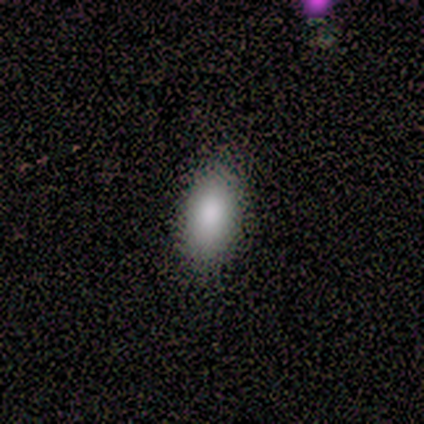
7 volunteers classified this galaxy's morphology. Smooth or featured?
  - smooth: 100% *
  - featured or disk: 0%
  - star or artifact: 0%
How rounded?
  - in between: 100% *
  - round: 0%
  - cigar-shaped: 0%
Merging?
  - none: 86% *
  - minor disturbance: 14%
  - major disturbance: 0%
  - merger: 0%